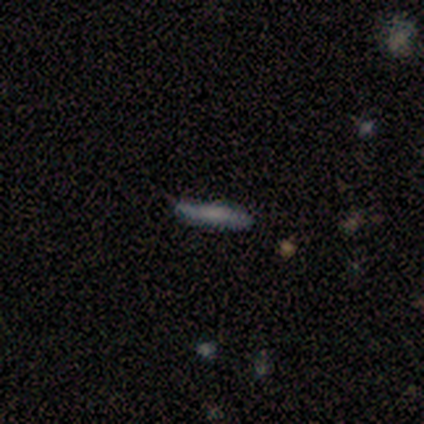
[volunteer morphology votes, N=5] smooth-or-featured: smooth: 60% | featured or disk: 40% | star or artifact: 0%
  how-rounded: cigar-shaped: 100% | round: 0% | in between: 0%
  merging: minor disturbance: 60% | none: 40% | major disturbance: 0% | merger: 0%